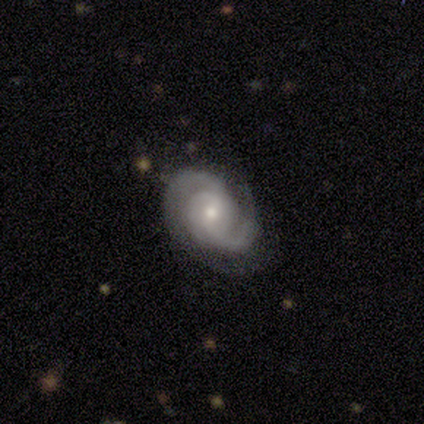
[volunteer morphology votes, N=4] This appears to be a featured or disk galaxy (75%) with no bar (100%), 2 (67%) tight (67%) spiral arms (100%) and a small central bulge (100%). Merging: none (100%).